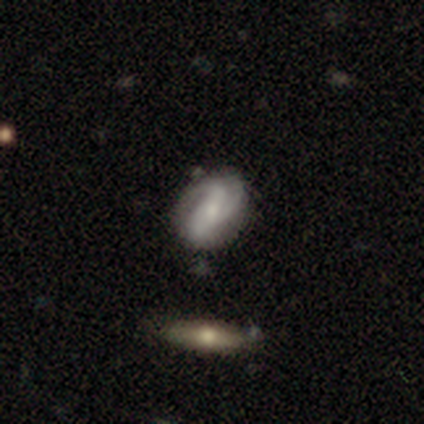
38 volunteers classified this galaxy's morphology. This appears to be a featured or disk galaxy (82%) with a weak bar (42%, tied with no), 3 (45%) medium (52%) spiral arms (100%) and a small central bulge (52%). Merging: none (68%).